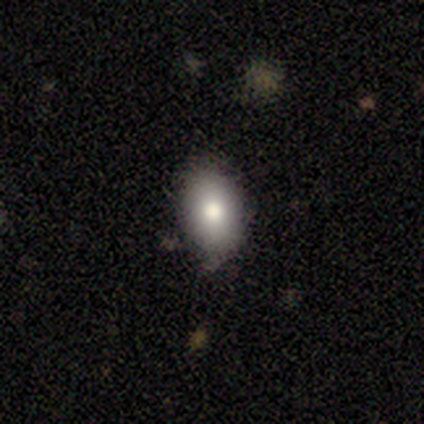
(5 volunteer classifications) smooth_or_featured: smooth (p=0.80) [alt: featured or disk p=0.20]
how_rounded: in between (p=0.75) [alt: round p=0.25]
merging: none (p=0.80) [alt: minor disturbance p=0.20]